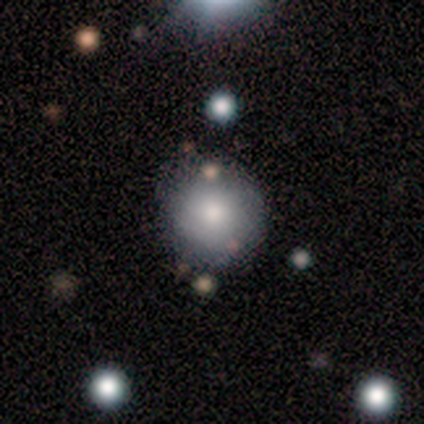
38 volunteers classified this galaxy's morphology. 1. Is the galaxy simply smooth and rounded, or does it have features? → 61% smooth, 26% featured or disk, 13% star or artifact.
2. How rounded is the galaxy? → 96% round, 4% in between, 0% cigar-shaped.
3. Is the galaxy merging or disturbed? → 55% none, 6% major disturbance, 3% minor disturbance, 0% merger.